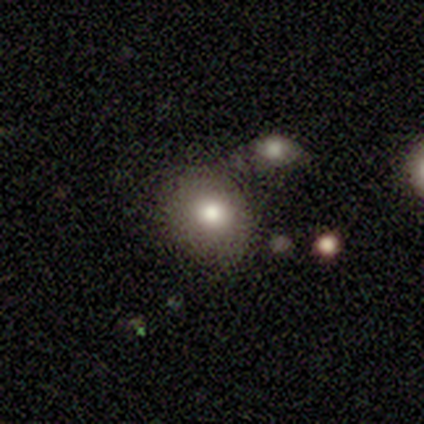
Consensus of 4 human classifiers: A smooth galaxy with no disk features (50%) that is round (100%).

Vote fractions:
- Smooth or featured? smooth: 50% / featured or disk: 25% / star or artifact: 25%
- How rounded? round: 100% / in between: 0% / cigar-shaped: 0%
- Merging? minor disturbance: 67% / none: 33% / major disturbance: 0% / merger: 0%